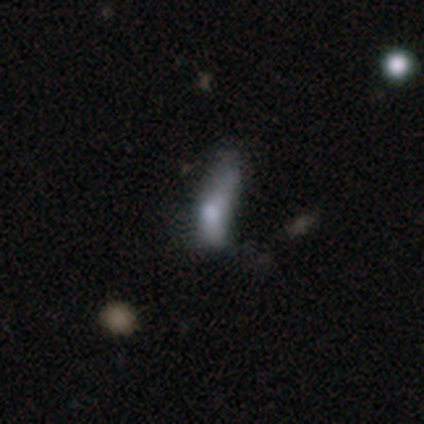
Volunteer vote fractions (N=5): Overall: smooth (80%). How rounded: cigar-shaped (75%). Merging: none (50%; minor disturbance 25%).